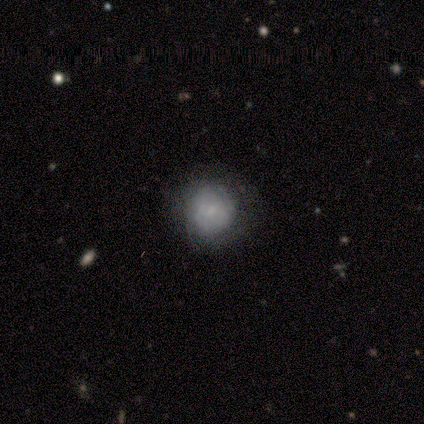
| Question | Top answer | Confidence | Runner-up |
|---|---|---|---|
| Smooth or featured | smooth | 57% | featured or disk (21%) |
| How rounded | round | 100% | — |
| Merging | none | 95% | minor disturbance (5%) |